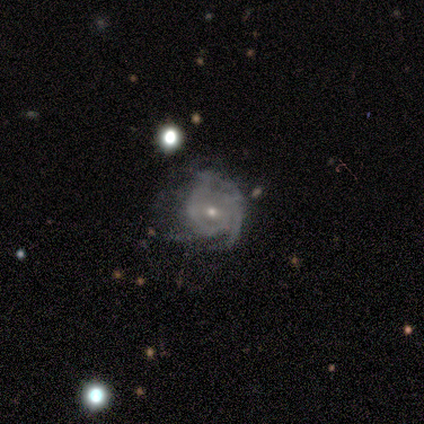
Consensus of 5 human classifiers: Smooth or featured: featured or disk — 100%
Edge-on disk: no — 100%
Bar: no — 60% (weak — 40%)
Spiral arms: yes — 100%
Spiral winding: tight — 40% (tied with medium — 40%)
Spiral arm count: can't tell — 60% (2 — 20%)
Bulge size: small — 80% (large — 20%)
Merging: none — 60% (minor disturbance — 20%)